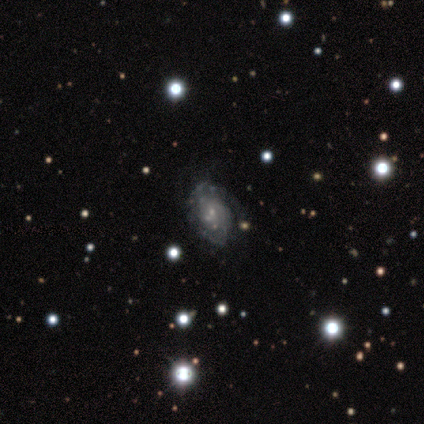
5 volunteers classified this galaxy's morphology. Smooth or featured? featured or disk (80%)
Edge-on disk? no (100%)
Bar? no (75%)
Spiral arms? yes (75%)
Spiral winding? tight (33%, tied with medium and loose)
Spiral arm count? 2 (67%)
Bulge size? small (75%)
Merging? none (100%)